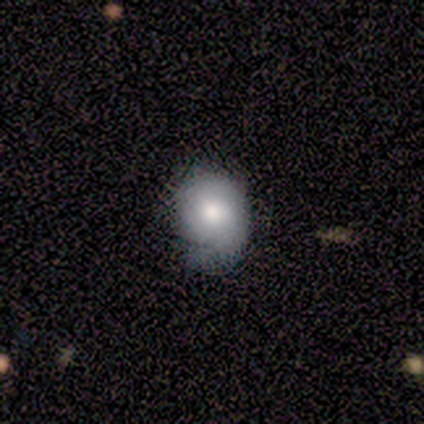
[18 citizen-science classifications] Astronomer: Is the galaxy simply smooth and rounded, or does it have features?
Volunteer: smooth — 72%.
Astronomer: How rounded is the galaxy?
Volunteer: in between — 62% (runner-up: round, 38%).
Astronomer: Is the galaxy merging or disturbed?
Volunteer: minor disturbance — 56% (runner-up: none, 44%).